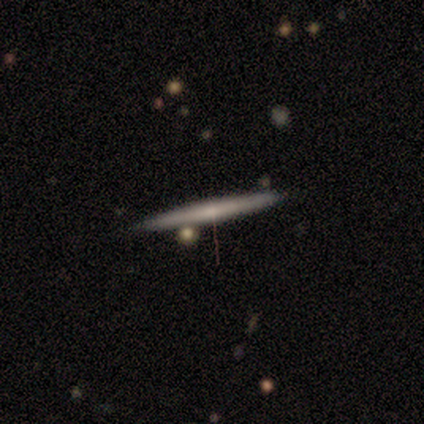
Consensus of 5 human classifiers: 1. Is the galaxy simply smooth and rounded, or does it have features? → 80% featured or disk, 20% smooth, 0% star or artifact.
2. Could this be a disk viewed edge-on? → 100% yes, 0% no.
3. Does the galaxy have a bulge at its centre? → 100% none, 0% boxy, 0% rounded.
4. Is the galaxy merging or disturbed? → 80% none, 20% merger, 0% minor disturbance, 0% major disturbance.